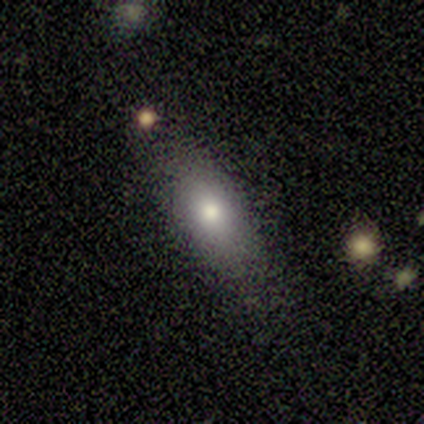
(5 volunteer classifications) This appears to be a smooth galaxy with no disk features (60%) that is in between round and cigar-shaped (67%). Merging: none (75%).